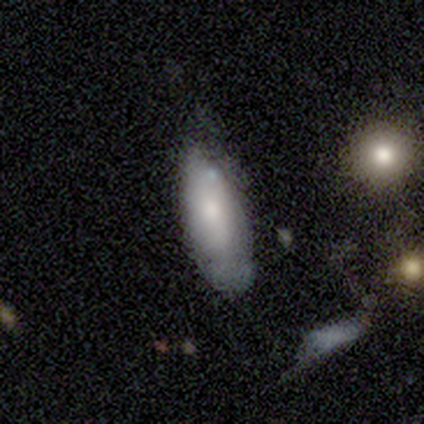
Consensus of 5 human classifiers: Volunteers were most divided on "how rounded": in between: 60%, cigar-shaped: 40%, round: 0%. More confident: smooth or featured — smooth (100%); merging — none (80%).